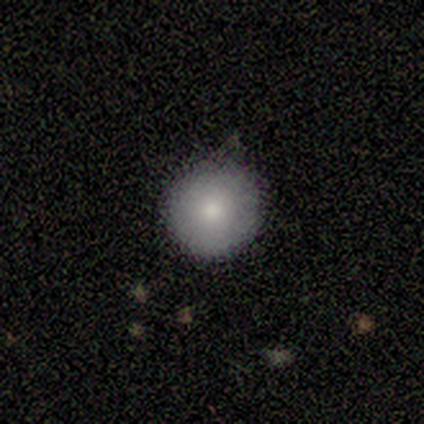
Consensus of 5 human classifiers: This appears to be a smooth galaxy with no disk features (80%) that is round (75%). Merging: none (80%).